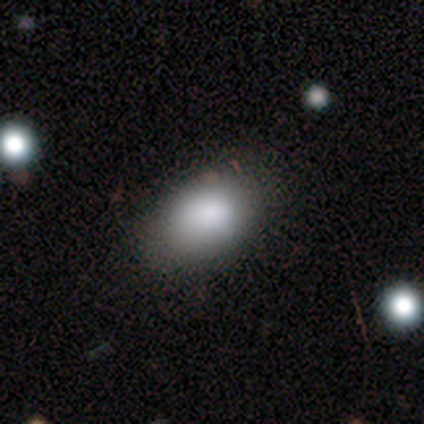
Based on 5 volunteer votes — Smooth or featured? 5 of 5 (100%) said smooth. How rounded? 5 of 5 (100%) said in between. Merging? 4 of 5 (80%) said none.